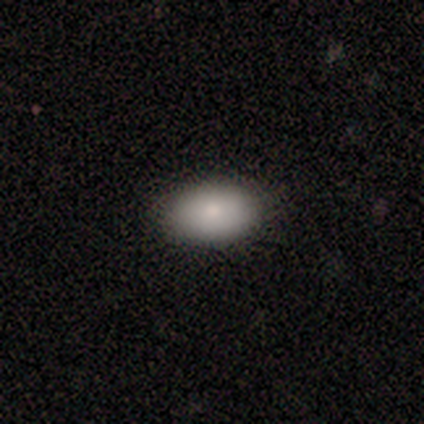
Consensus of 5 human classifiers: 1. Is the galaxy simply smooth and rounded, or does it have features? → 80% smooth, 20% star or artifact, 0% featured or disk.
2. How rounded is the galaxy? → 100% in between, 0% round, 0% cigar-shaped.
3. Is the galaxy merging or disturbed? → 100% none, 0% minor disturbance, 0% major disturbance, 0% merger.